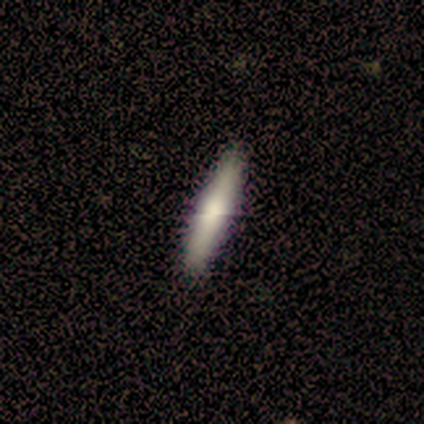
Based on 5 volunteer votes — smooth 80%, featured or disk 20%, star or artifact 0%. Down the decision tree: how rounded — cigar-shaped (100%); merging — none (60%).